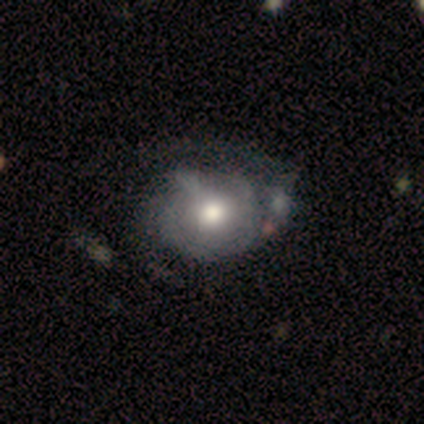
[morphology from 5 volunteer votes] A smooth galaxy with no disk features (60%) that is in between round and cigar-shaped (67%).

Vote fractions:
- Smooth or featured? smooth: 60% / featured or disk: 40% / star or artifact: 0%
- How rounded? in between: 67% / round: 33% / cigar-shaped: 0%
- Merging? none: 80% / minor disturbance: 20% / major disturbance: 0% / merger: 0%